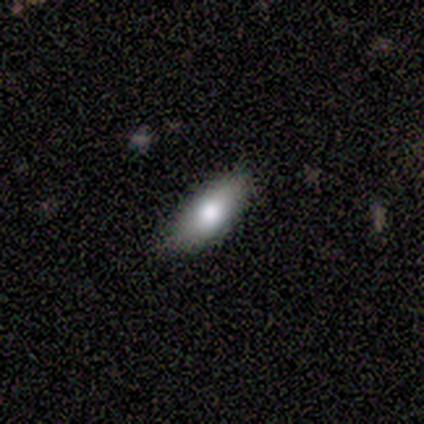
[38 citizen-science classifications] smooth-or-featured: smooth: 74% | featured or disk: 21% | star or artifact: 5%
  how-rounded: in between: 93% | cigar-shaped: 7% | round: 0%
  merging: none: 89% | minor disturbance: 11% | major disturbance: 0% | merger: 0%